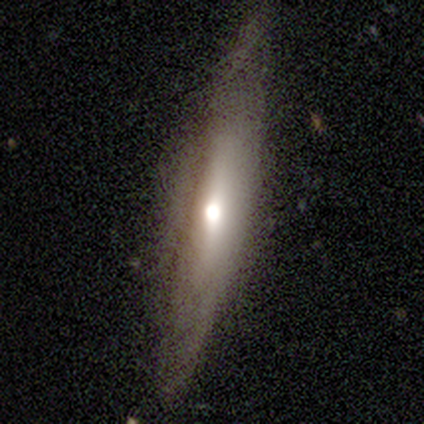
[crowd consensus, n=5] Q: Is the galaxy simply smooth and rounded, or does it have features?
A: featured or disk — 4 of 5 (80%).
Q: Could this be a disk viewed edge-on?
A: yes — 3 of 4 (75%).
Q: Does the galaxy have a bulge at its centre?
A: rounded — 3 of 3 (100%).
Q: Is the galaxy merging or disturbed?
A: none — 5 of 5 (100%).